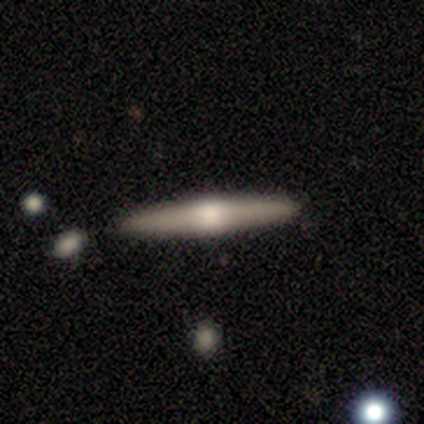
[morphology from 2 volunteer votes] smooth_or_featured: featured or disk (p=1.00)
disk_edge_on: yes (p=1.00)
edge_on_bulge: none (p=0.50) [tied with: rounded p=0.50]
merging: none (p=1.00)